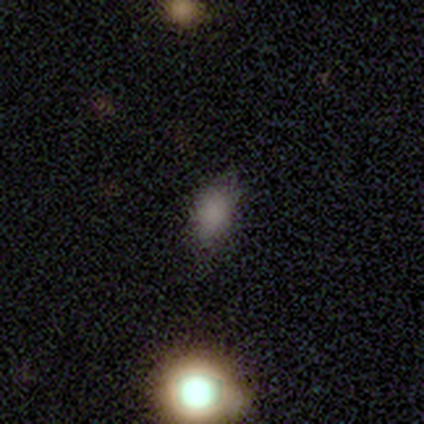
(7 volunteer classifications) A smooth galaxy with no disk features (100%) that is in between round and cigar-shaped (71%). Merging: none (86%).